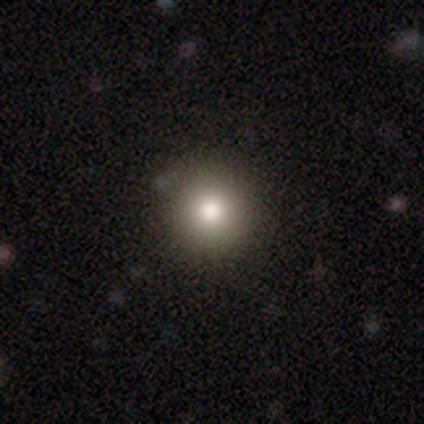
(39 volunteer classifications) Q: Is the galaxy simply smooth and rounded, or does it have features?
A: smooth — 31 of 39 (79%).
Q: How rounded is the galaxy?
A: round — 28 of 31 (90%).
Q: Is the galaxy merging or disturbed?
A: none — 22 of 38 (58%).